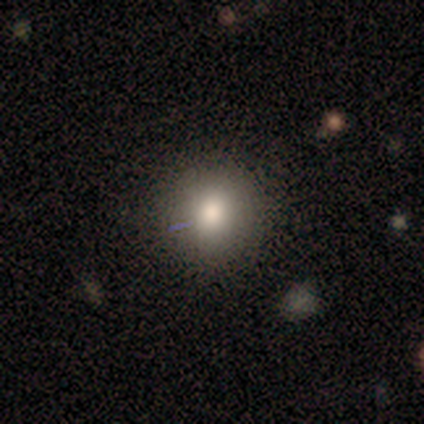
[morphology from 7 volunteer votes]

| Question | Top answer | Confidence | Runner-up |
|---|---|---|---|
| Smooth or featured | smooth | 71% | featured or disk (29%) |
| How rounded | round | 80% | in between (20%) |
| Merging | none | 57% | minor disturbance (29%) |